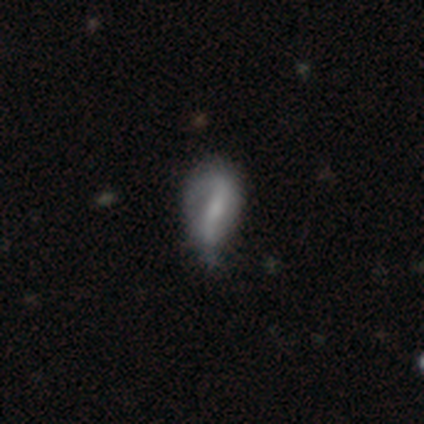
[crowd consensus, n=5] smooth_or_featured: featured or disk (p=0.60) [alt: smooth p=0.40]
disk_edge_on: no (p=1.00)
bar: weak (p=0.67) [alt: strong p=0.33]
has_spiral_arms: yes (p=0.67) [alt: no p=0.33]
spiral_winding: loose (p=1.00)
spiral_arm_count: 2 (p=1.00)
bulge_size: small (p=1.00)
merging: none (p=0.60) [alt: minor disturbance p=0.40]